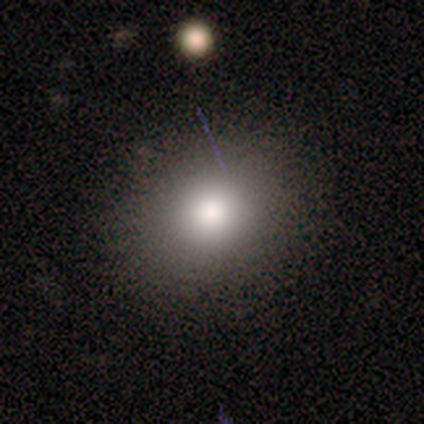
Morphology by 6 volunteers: Volunteers were most divided on "smooth or featured": smooth: 67%, featured or disk: 17%, star or artifact: 17%. More confident: merging — none (80%); how rounded — round (75%).